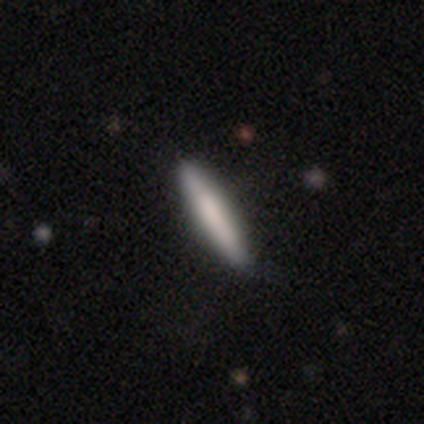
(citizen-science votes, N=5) Volunteers were most divided on "smooth or featured" (2-way tie): smooth: 40%, featured or disk: 40%, star or artifact: 20%. More confident: how rounded — cigar-shaped (100%); merging — none (100%).